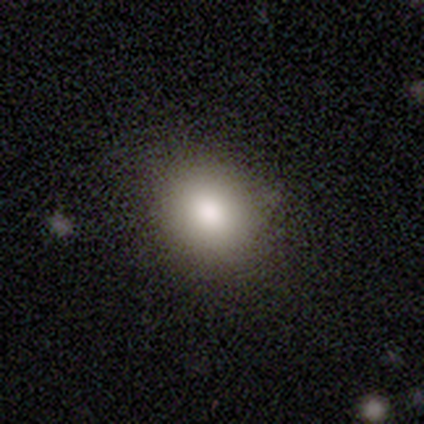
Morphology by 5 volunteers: Smooth or featured: smooth — 80% (star or artifact — 20%)
How rounded: round — 50% (tied with in between — 50%)
Merging: none — 75% (minor disturbance — 25%)